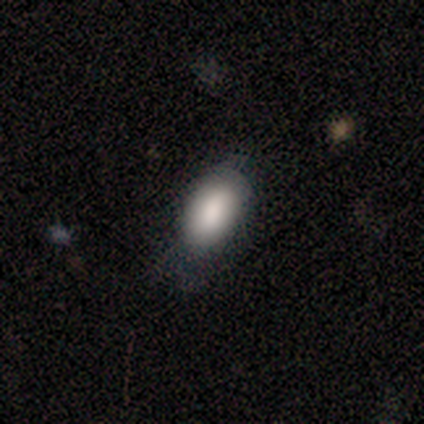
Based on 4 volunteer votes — Volunteers were most divided on "how rounded": in between: 67%, cigar-shaped: 33%, round: 0%. More confident: smooth or featured — smooth (75%); merging — none (67%).